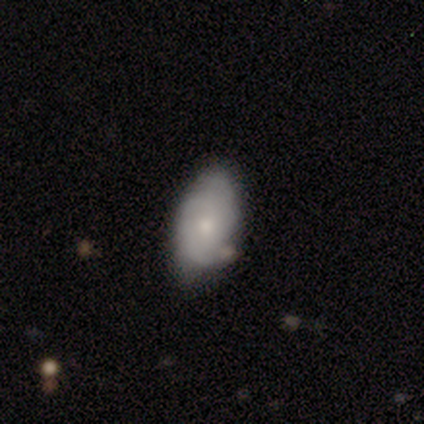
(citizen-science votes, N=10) Volunteers were most divided on "smooth or featured": smooth: 60%, featured or disk: 40%, star or artifact: 0%. More confident: how rounded — in between (100%); merging — none (60%).